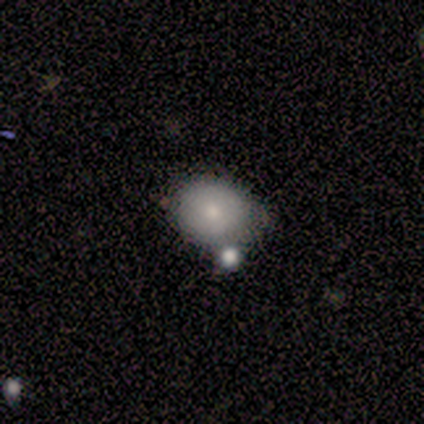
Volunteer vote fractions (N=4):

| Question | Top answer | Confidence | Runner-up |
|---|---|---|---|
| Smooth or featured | smooth | 50% | tied: star or artifact (50%) |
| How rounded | round | 50% | tied: in between (50%) |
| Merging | none | 50% | tied: merger (50%) |